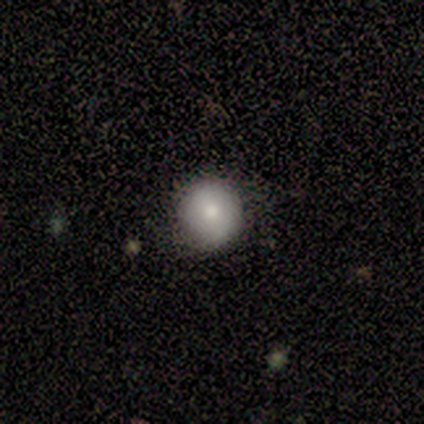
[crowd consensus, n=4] A smooth galaxy with no disk features (75%) that is round (100%).

Vote fractions:
- Smooth or featured? smooth: 75% / star or artifact: 25% / featured or disk: 0%
- How rounded? round: 100% / in between: 0% / cigar-shaped: 0%
- Merging? none: 100% / minor disturbance: 0% / major disturbance: 0% / merger: 0%